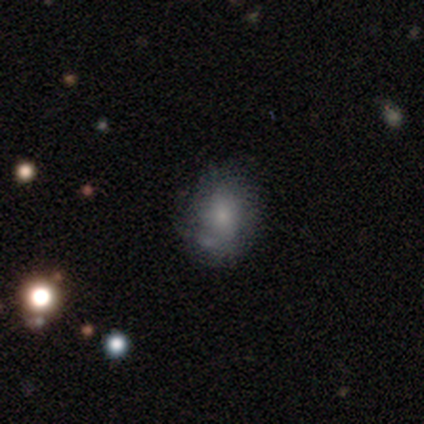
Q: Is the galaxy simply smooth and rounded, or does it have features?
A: smooth — 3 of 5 (60%).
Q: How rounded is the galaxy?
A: in between — 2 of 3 (67%).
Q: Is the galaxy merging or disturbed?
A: none — 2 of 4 (50%).